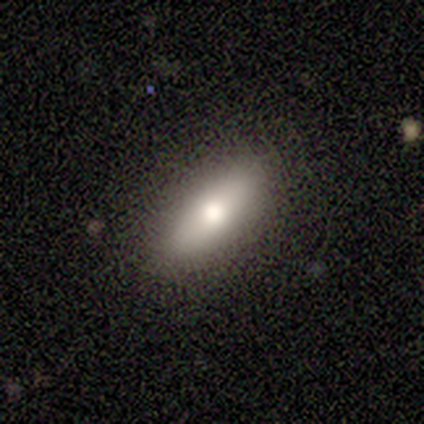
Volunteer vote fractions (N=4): A smooth galaxy with no disk features (75%) that is in between round and cigar-shaped (67%).

Vote fractions:
- Smooth or featured? smooth: 75% / featured or disk: 25% / star or artifact: 0%
- How rounded? in between: 67% / cigar-shaped: 33% / round: 0%
- Merging? none: 100% / minor disturbance: 0% / major disturbance: 0% / merger: 0%